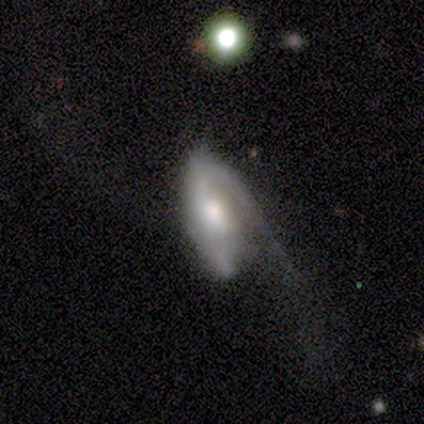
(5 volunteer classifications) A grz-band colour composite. It shows a featured or disk galaxy (80%) with a weak bar (100%), 1 (50%, tied with 2) medium (50%, tied with loose) spiral arms (67%) and a moderate central bulge (100%). Merging: none (40%, tied with minor disturbance).